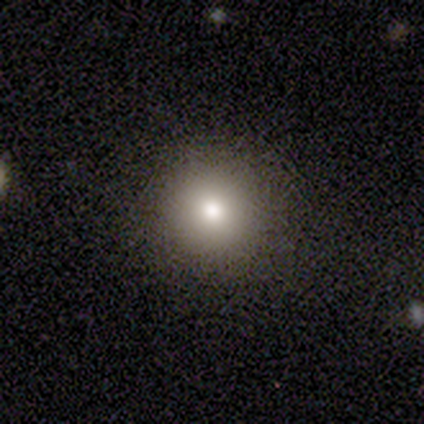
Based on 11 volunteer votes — smooth 73%, featured or disk 27%, star or artifact 0%. Down the decision tree: how rounded — round (88%); merging — none (91%).